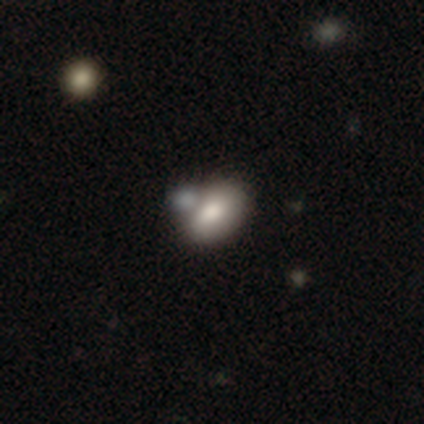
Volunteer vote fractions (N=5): Smooth or featured: smooth — 60% (featured or disk — 40%)
How rounded: in between — 100%
Merging: merger — 60% (none — 40%)